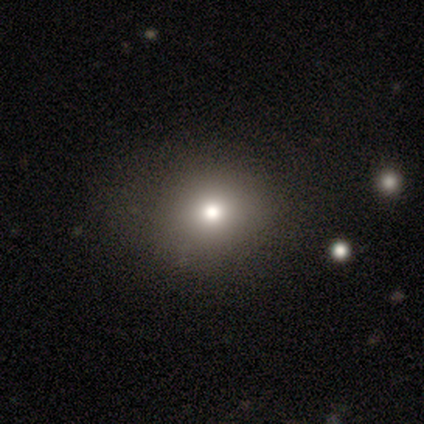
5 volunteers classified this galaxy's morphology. This appears to be a smooth galaxy with no disk features (60%) that is round (67%). Merging: none (75%).